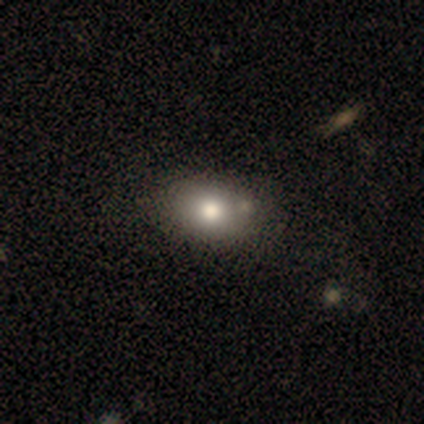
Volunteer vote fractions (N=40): This is likely a smooth galaxy (75%). How rounded: likely in between (63%). Merging: possibly none (56%).